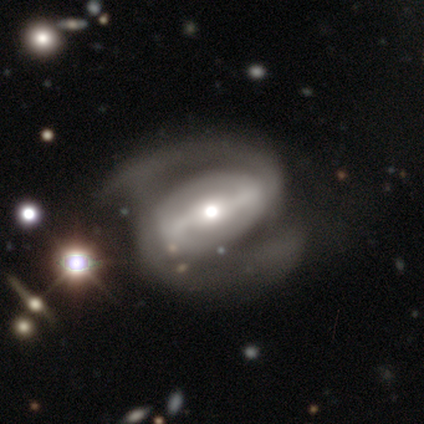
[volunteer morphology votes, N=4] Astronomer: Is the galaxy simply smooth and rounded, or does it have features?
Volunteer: featured or disk — 100%.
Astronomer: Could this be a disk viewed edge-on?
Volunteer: no — 100%.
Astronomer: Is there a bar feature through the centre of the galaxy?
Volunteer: strong — 75%.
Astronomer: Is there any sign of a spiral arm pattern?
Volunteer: yes — 100%.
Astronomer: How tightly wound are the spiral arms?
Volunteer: medium — 75%.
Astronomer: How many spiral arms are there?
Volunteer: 2 — 100%.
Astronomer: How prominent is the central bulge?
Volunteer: moderate — 100%.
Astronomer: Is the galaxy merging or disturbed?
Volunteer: minor disturbance — 50%.